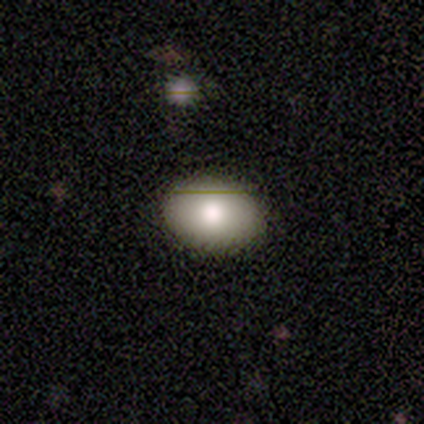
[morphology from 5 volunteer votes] Smooth or featured: smooth — 60% (featured or disk — 40%)
How rounded: in between — 100%
Merging: none — 100%